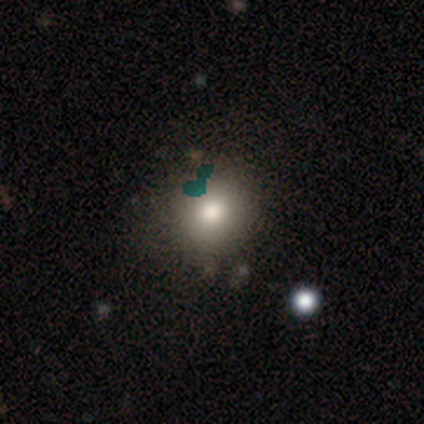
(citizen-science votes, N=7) A smooth galaxy with no disk features (86%) that is round (100%).

Vote fractions:
- Smooth or featured? smooth: 86% / star or artifact: 14% / featured or disk: 0%
- How rounded? round: 100% / in between: 0% / cigar-shaped: 0%
- Merging? none: 100% / minor disturbance: 0% / major disturbance: 0% / merger: 0%